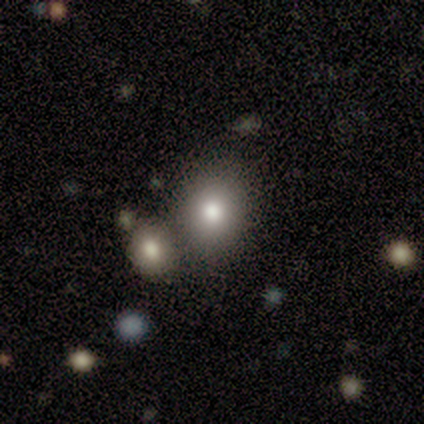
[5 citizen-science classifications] A smooth galaxy with no disk features (80%) that is round (50%, tied with in between).

Vote fractions:
- Smooth or featured? smooth: 80% / featured or disk: 20% / star or artifact: 0%
- How rounded? round: 50% (tied) / in between: 50% (tied) / cigar-shaped: 0%
- Merging? none: 40% (tied) / minor disturbance: 40% (tied) / merger: 20% / major disturbance: 0%